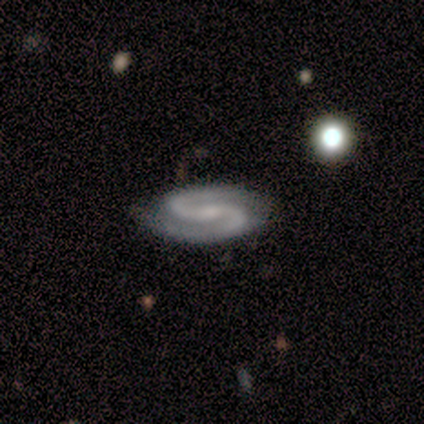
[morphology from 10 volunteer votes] This is clearly a featured or disk galaxy (80%). It is clearly not viewed edge-on (100%). Bar: possibly no (50%). Spiral arm pattern: clearly yes (100%). Spiral arm count: clearly 2 (100%). Spiral winding: possibly tight (50%, tied with medium). Central bulge: likely small (75%). Merging: clearly none (88%).